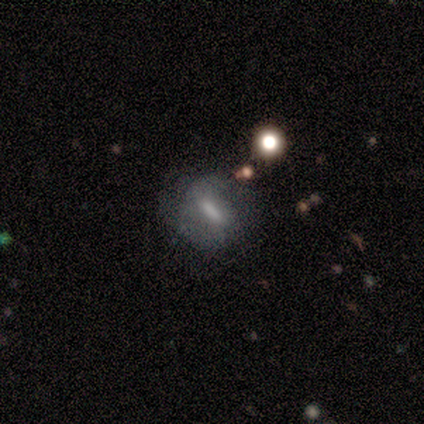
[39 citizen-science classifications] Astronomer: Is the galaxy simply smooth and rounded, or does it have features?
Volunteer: featured or disk — 44% (runner-up: smooth, 41%).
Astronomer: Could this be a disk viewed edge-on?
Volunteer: no — 88%.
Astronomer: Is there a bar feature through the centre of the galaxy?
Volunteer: weak — 40% (runner-up: strong, 33%).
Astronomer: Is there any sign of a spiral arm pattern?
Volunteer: no — 73%.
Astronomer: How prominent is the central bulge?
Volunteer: moderate — 33% (runner-up: small, 27%).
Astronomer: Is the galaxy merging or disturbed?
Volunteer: none — 48% (runner-up: minor disturbance, 24%).